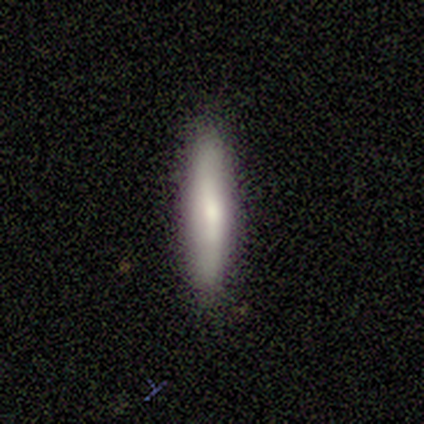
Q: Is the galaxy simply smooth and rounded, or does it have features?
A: smooth — 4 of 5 (80%).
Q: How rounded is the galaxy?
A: cigar-shaped — 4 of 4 (100%).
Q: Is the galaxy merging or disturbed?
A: none — 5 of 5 (100%).